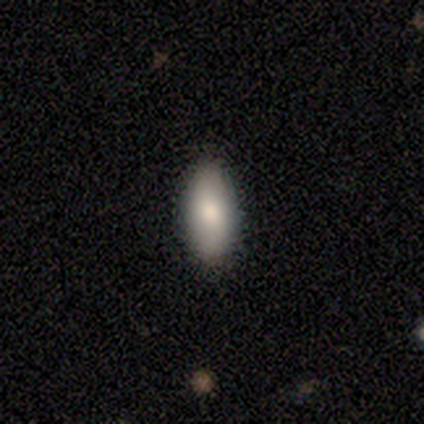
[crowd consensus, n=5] Smooth or featured? smooth (80%)
How rounded? in between (50%, tied with cigar-shaped)
Merging? none (80%)